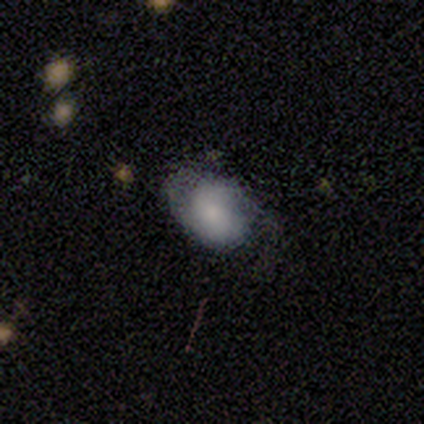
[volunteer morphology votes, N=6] Smooth or featured? smooth (50%)
How rounded? in between (100%)
Merging? none (40%, tied with minor disturbance)